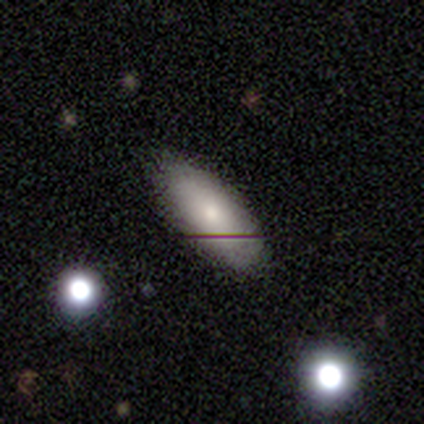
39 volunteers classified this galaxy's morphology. smooth 77%, featured or disk 13%, star or artifact 10%. Down the decision tree: how rounded — in between (90%); merging — none (86%).